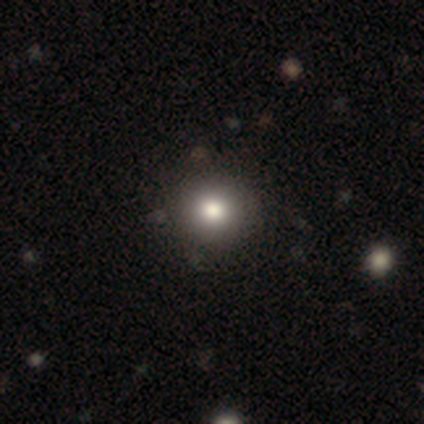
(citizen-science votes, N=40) Overall: smooth (72%). How rounded: round (86%). Merging: none (91%).